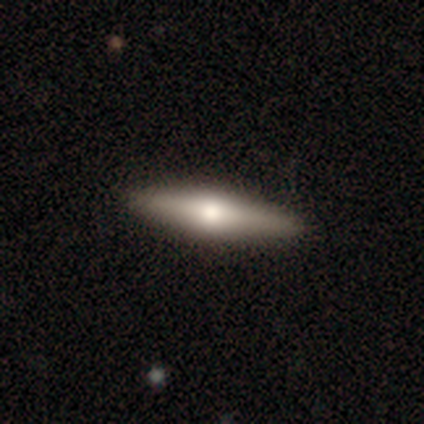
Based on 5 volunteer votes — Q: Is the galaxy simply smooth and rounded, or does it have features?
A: featured or disk — 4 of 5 (80%).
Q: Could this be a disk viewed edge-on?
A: yes — 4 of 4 (100%).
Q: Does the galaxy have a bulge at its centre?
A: rounded — 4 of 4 (100%).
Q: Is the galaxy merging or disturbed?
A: none — 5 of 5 (100%).